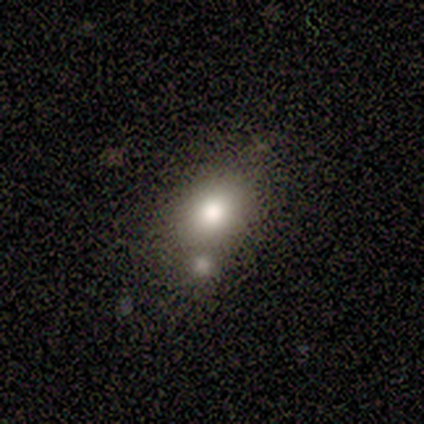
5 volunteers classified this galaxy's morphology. type=smooth (100%); roundness=round (40%, tied with in between); merging=none (80%).